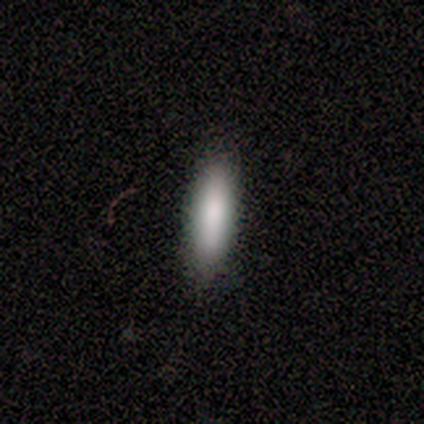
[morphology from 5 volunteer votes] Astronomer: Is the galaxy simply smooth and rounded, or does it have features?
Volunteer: smooth — 80%.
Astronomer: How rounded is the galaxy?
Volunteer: in between — 75%.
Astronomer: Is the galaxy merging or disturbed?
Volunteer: none — 100%.